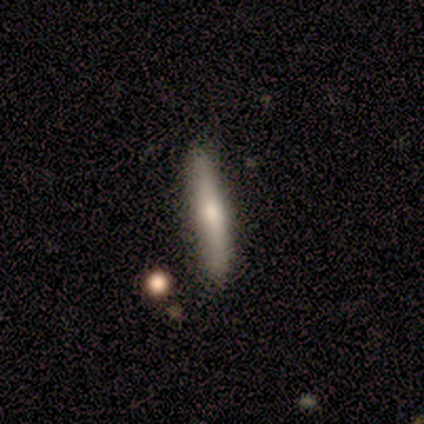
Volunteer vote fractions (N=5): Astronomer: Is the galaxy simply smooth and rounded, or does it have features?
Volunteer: featured or disk — 60%.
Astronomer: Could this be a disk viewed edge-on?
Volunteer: yes — 100%.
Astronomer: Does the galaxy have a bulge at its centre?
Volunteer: rounded — 67%.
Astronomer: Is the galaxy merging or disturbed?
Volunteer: none — 75%.